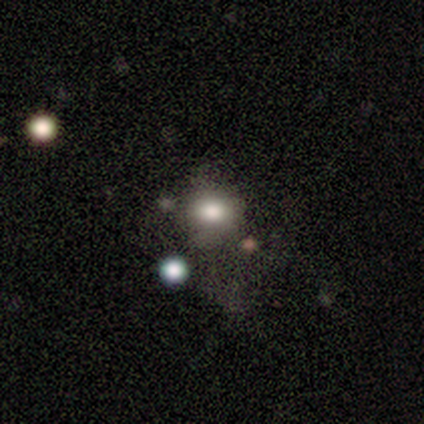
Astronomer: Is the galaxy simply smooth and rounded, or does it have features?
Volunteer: smooth — 62%.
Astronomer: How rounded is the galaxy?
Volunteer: in between — 80%.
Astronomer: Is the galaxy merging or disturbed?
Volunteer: none — 67%.